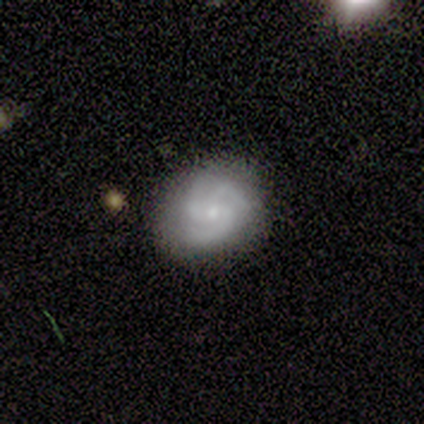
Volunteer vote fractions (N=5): Smooth or featured? featured or disk (80%)
Edge-on disk? no (100%)
Bar? no (100%)
Spiral arms? yes (100%)
Spiral winding? loose (50%)
Spiral arm count? 3 (100%)
Bulge size? moderate (50%, tied with small)
Merging? none (100%)